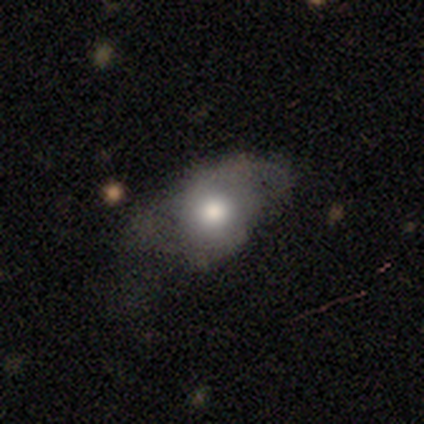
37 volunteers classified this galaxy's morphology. Smooth or featured? 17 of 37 (46%) said smooth. How rounded? 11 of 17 (65%) said in between. Merging? 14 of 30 (47%) said none.